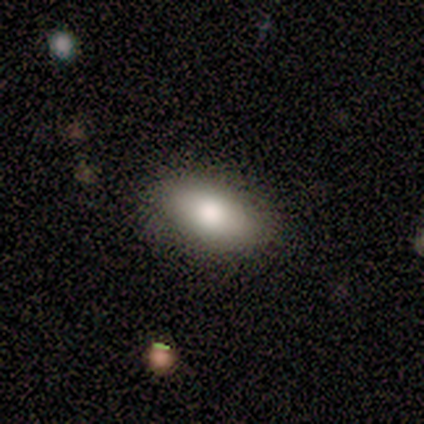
smooth 100%, featured or disk 0%, star or artifact 0%. Down the decision tree: how rounded — in between (80%); merging — none (100%).